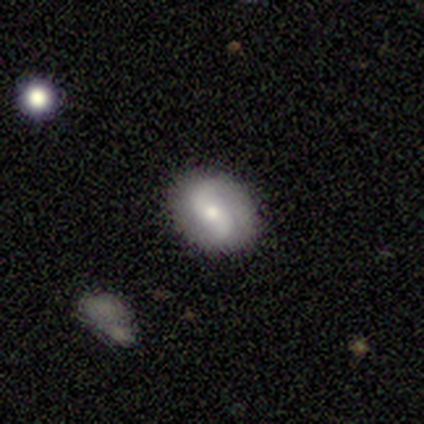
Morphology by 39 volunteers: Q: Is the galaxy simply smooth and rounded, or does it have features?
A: featured or disk — 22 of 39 (56%).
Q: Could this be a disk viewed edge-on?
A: no — 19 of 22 (86%).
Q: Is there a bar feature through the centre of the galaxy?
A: weak — 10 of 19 (53%).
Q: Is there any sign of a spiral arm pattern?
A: yes — 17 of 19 (89%).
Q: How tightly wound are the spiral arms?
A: loose — 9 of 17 (53%).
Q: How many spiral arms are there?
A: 2 — 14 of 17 (82%).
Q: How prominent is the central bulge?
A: moderate — 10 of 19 (53%).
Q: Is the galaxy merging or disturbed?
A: none — 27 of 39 (69%).